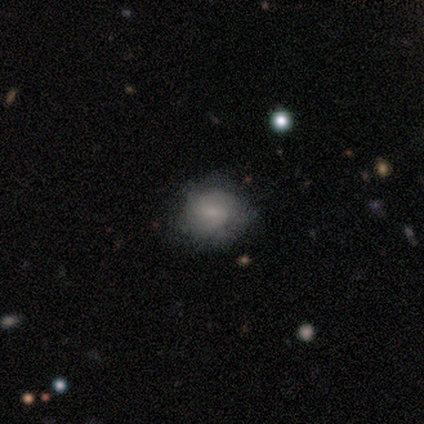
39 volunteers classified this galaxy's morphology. Smooth or featured?
  - smooth: 62% *
  - featured or disk: 28%
  - star or artifact: 10%
How rounded?
  - round: 71% *
  - in between: 29%
  - cigar-shaped: 0%
Merging?
  - none: 60% *
  - minor disturbance: 6%
  - major disturbance: 3%
  - merger: 0%